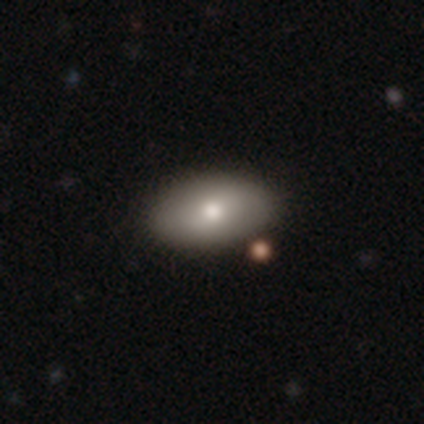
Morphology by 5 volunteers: smooth_or_featured: smooth (p=0.60) [alt: featured or disk p=0.20]
how_rounded: in between (p=1.00)
merging: none (p=1.00)